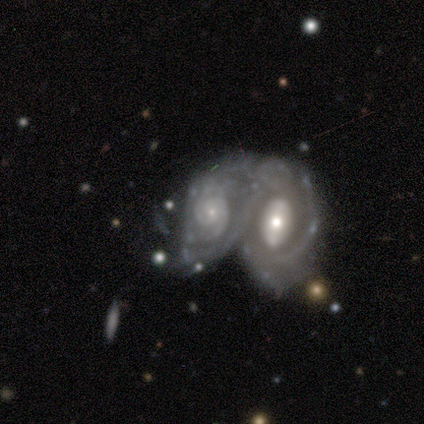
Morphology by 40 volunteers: type=featured or disk (95%); edge-on=no (100%); bar=no (74%); spiral arms=yes (87%); winding=tight (79%); arm count=can't tell (55%); bulge=small (68%); merging=merger (87%).